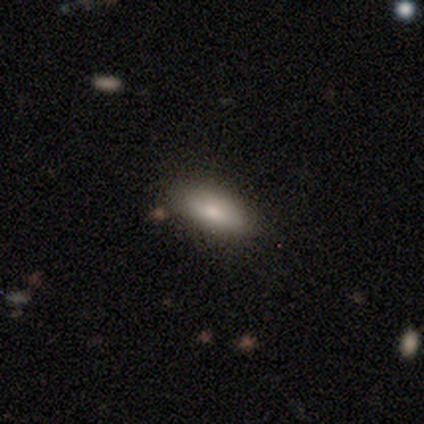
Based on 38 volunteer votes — A smooth galaxy with no disk features (87%) that is in between round and cigar-shaped (76%).

Vote fractions:
- Smooth or featured? smooth: 87% / featured or disk: 13% / star or artifact: 0%
- How rounded? in between: 76% / cigar-shaped: 21% / round: 3%
- Merging? none: 82% / minor disturbance: 18% / major disturbance: 0% / merger: 0%